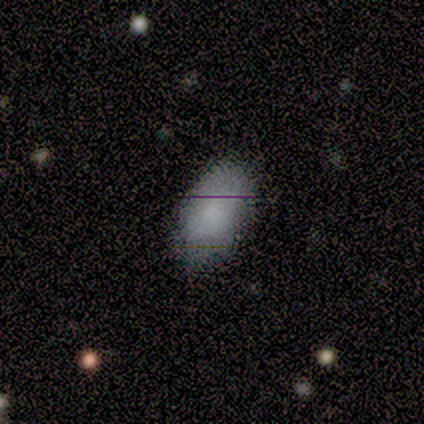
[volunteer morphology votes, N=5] Smooth or featured? smooth (60%)
How rounded? in between (100%)
Merging? none (50%, tied with minor disturbance)